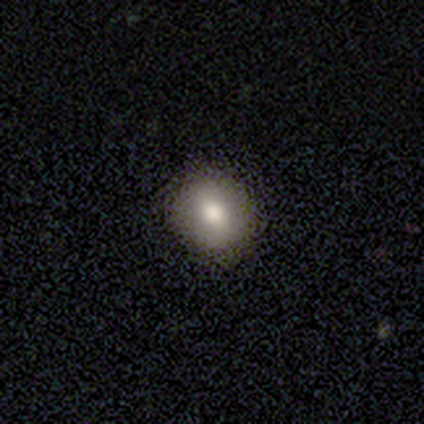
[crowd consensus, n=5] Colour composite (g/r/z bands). It shows a smooth galaxy with no disk features (80%) that is round (100%). Merging: none (100%).